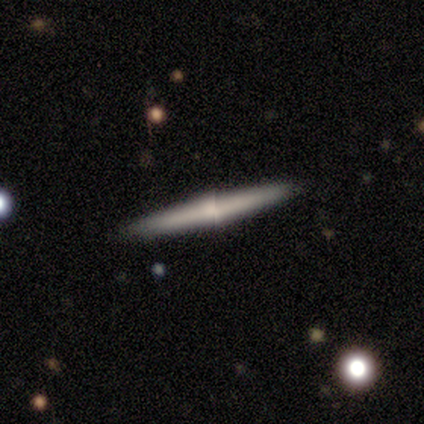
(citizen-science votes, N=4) A smooth galaxy with no disk features (50%, tied with featured or disk) that is cigar-shaped (100%).

Vote fractions:
- Smooth or featured? smooth: 50% (tied) / featured or disk: 50% (tied) / star or artifact: 0%
- How rounded? cigar-shaped: 100% / round: 0% / in between: 0%
- Merging? none: 75% / minor disturbance: 25% / major disturbance: 0% / merger: 0%